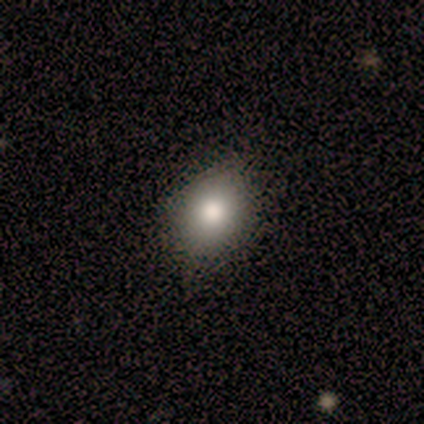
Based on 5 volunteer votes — Smooth or featured: smooth — 100%
How rounded: in between — 80% (cigar-shaped — 20%)
Merging: none — 60% (minor disturbance — 20%)